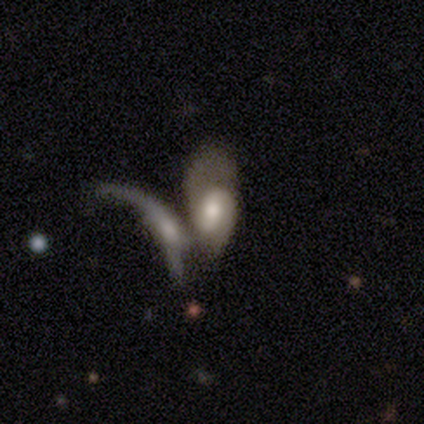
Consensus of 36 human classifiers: Smooth or featured?
  - featured or disk: 72% *
  - smooth: 28%
  - star or artifact: 0%
Edge-on disk?
  - no: 100% *
  - yes: 0%
Bar?
  - weak: 58% *
  - no: 23%
  - strong: 19%
Spiral arms?
  - yes: 69% *
  - no: 31%
Spiral winding?
  - medium: 50% *
  - tight: 39%
  - loose: 11%
Spiral arm count?
  - 2: 72% *
  - can't tell: 22%
  - 3: 6%
  - 1: 0%
  - 4: 0%
  - more than 4: 0%
Bulge size?
  - moderate: 50% *
  - large: 27%
  - small: 19%
  - dominant: 4%
  - none: 0%
Merging?
  - merger: 78% *
  - major disturbance: 14%
  - minor disturbance: 6%
  - none: 3%